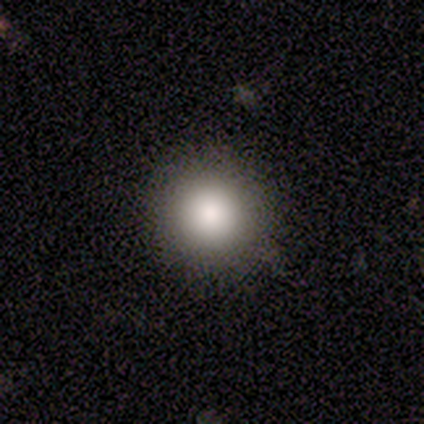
Smooth or featured?
  - smooth: 100% *
  - featured or disk: 0%
  - star or artifact: 0%
How rounded?
  - round: 100% *
  - in between: 0%
  - cigar-shaped: 0%
Merging?
  - none: 100% *
  - minor disturbance: 0%
  - major disturbance: 0%
  - merger: 0%